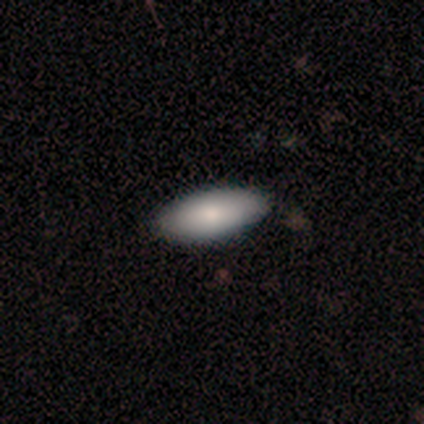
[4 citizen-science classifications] Smooth or featured: smooth — 100%
How rounded: in between — 100%
Merging: none — 100%